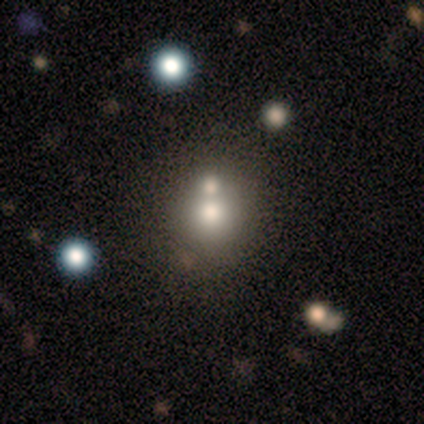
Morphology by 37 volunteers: A smooth galaxy with no disk features (59%) that is round (86%).

Vote fractions:
- Smooth or featured? smooth: 59% / star or artifact: 22% / featured or disk: 19%
- How rounded? round: 86% / in between: 14% / cigar-shaped: 0%
- Merging? none: 52% / merger: 34% / minor disturbance: 14% / major disturbance: 0%